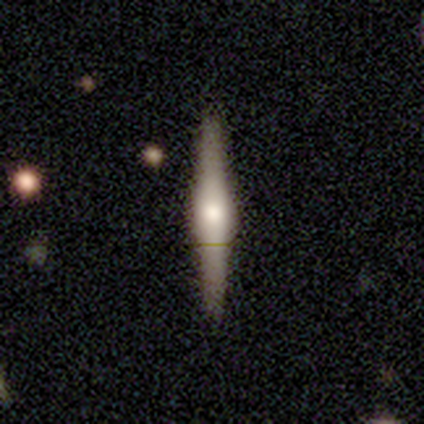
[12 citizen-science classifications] Smooth or featured? featured or disk (75%)
Edge-on disk? yes (100%)
Edge-on bulge? rounded (67%)
Merging? none (100%)